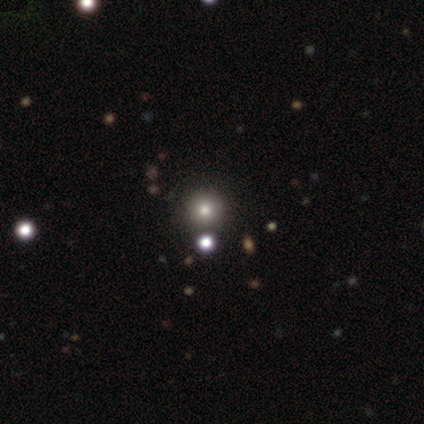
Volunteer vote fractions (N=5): Smooth or featured: featured or disk — 40% (tied with star or artifact — 40%)
Edge-on disk: no — 100%
Bar: no — 100%
Spiral arms: no — 100%
Bulge size: small — 100%
Merging: merger — 67% (none — 33%)